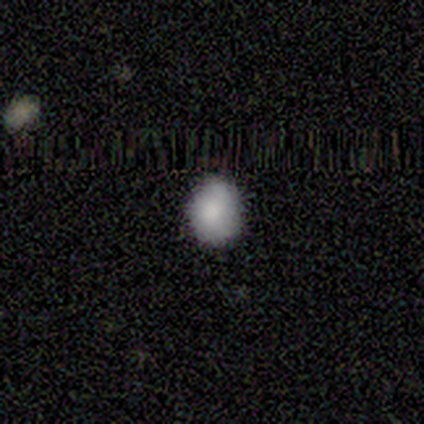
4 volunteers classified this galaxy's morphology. Smooth or featured: smooth — 100%
How rounded: round — 50% (tied with in between — 50%)
Merging: none — 75% (minor disturbance — 25%)